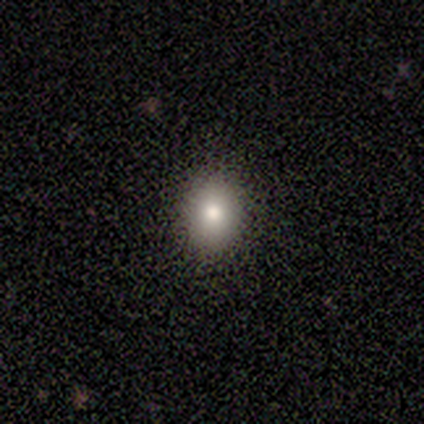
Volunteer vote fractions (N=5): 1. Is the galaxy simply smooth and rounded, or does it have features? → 80% smooth, 20% featured or disk, 0% star or artifact.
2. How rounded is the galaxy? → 75% round, 25% in between, 0% cigar-shaped.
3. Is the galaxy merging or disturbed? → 100% none, 0% minor disturbance, 0% major disturbance, 0% merger.